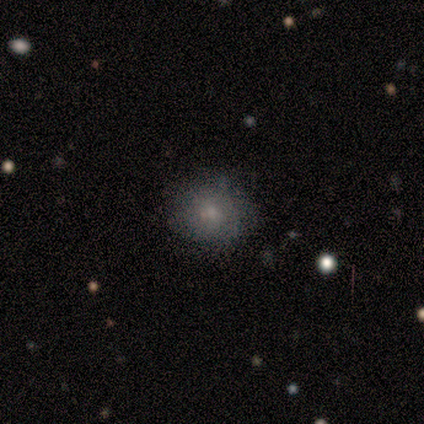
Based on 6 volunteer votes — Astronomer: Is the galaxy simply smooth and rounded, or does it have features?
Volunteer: smooth — 83%.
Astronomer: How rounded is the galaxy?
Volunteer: round — 100%.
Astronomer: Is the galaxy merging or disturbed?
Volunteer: none — 100%.